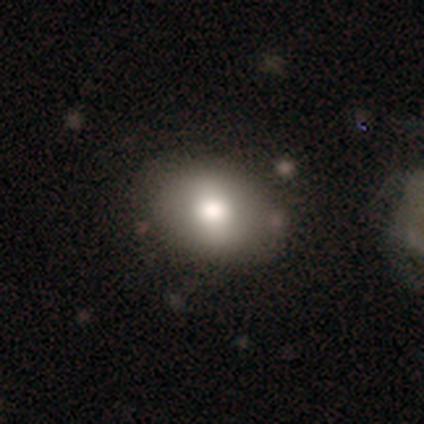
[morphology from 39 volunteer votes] Smooth or featured: smooth — 79% (featured or disk — 15%)
How rounded: in between — 81% (round — 19%)
Merging: none — 73% (minor disturbance — 11%)